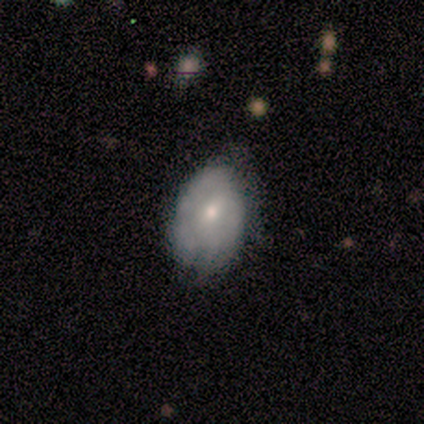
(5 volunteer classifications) Overall: smooth (60%; featured or disk 20%). How rounded: in between (100%). Merging: none (50%, tied with minor disturbance).